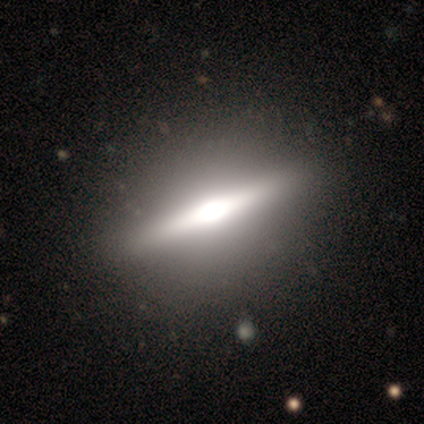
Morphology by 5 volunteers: Volunteers were most divided on "smooth or featured": featured or disk: 60%, smooth: 40%, star or artifact: 0%. More confident: edge-on disk — yes (100%); edge-on bulge — rounded (100%); merging — none (100%).